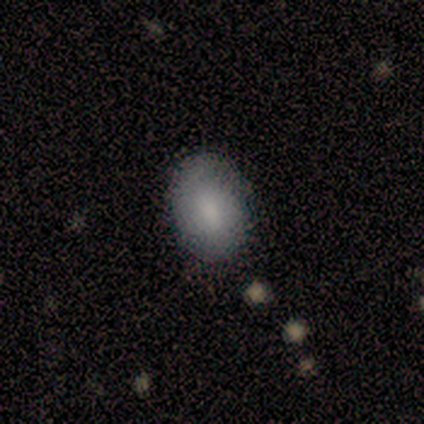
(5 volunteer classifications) Morphology: type=smooth (100%); roundness=in between (100%); merging=none (80%).